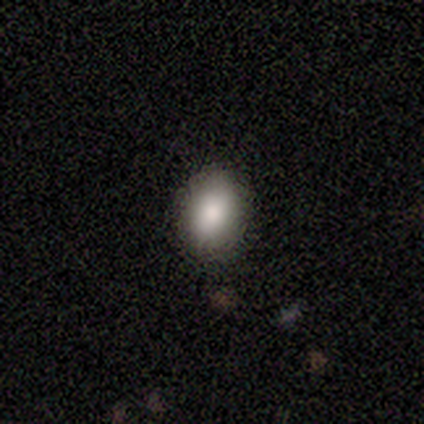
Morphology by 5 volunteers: Q: Smooth or featured?
A: smooth (80%); runner-up: star or artifact (20%)
Q: How rounded?
A: round (50%); tied with: in between (50%)
Q: Merging?
A: none (100%)